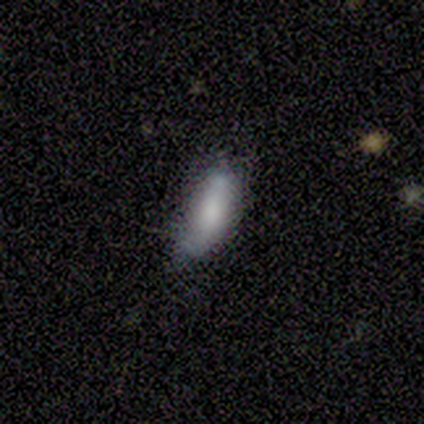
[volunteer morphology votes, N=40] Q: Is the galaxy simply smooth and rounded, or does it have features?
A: smooth — 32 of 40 (80%).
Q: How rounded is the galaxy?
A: in between — 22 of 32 (69%).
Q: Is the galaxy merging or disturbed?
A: minor disturbance — 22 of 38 (58%).